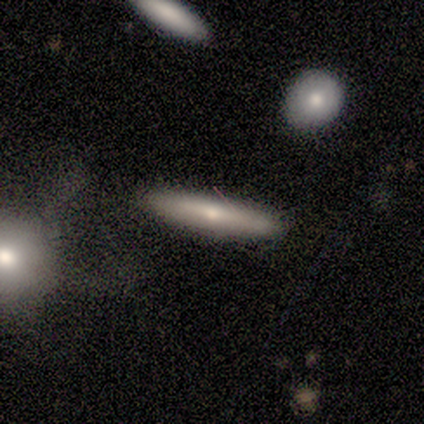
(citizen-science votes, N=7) Morphology: type=smooth (57%); roundness=cigar-shaped (100%); merging=none (86%).